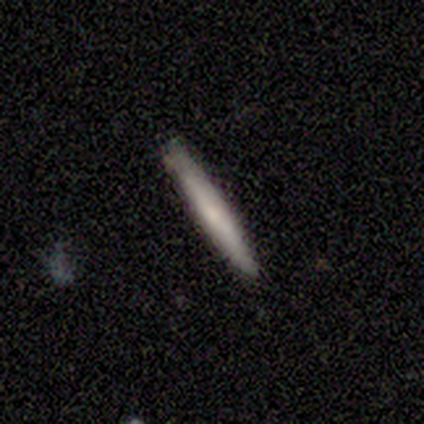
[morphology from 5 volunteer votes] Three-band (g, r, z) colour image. It shows a smooth galaxy with no disk features (80%) that is cigar-shaped (100%). Merging: none (80%).